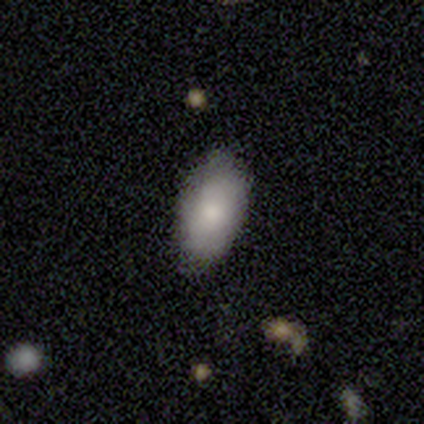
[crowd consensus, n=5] Morphology: type=smooth (100%); roundness=in between (100%); merging=none (80%).